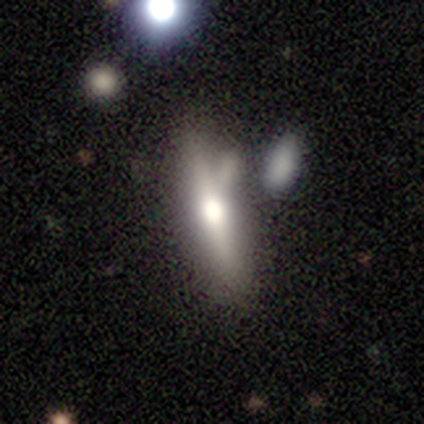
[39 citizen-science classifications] A featured or disk galaxy (56%) viewed edge-on (82%) with a rounded central bulge (89%). Merging: none (65%).